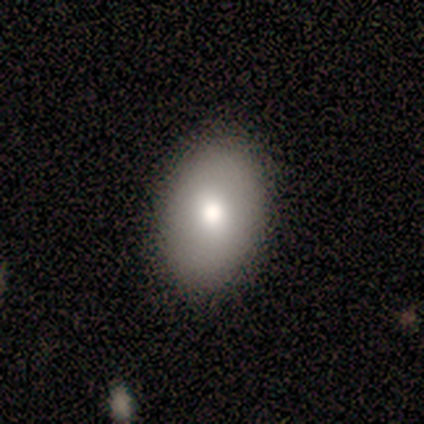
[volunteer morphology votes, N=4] smooth 50% (tied), featured or disk 50% (tied), star or artifact 0%. Down the decision tree: how rounded — round (50%, tied with in between); merging — none (75%).